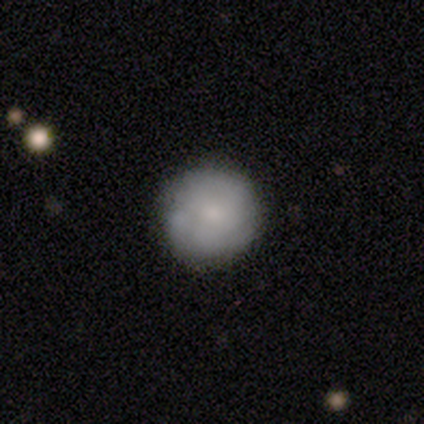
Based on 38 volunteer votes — This is likely a smooth galaxy (74%). How rounded: clearly round (100%). Merging: likely none (68%).